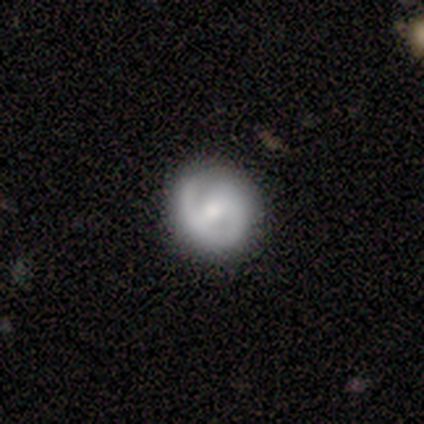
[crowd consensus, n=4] Q: Smooth or featured?
A: featured or disk (75%); runner-up: smooth (25%)
Q: Edge-on disk?
A: no (100%)
Q: Bar?
A: strong (33%); tied with: weak (33%); no (33%)
Q: Spiral arms?
A: yes (100%)
Q: Spiral winding?
A: tight (67%); runner-up: medium (33%)
Q: Spiral arm count?
A: 2 (67%); runner-up: 1 (33%)
Q: Bulge size?
A: moderate (33%); tied with: small (33%); none (33%)
Q: Merging?
A: none (50%); tied with: minor disturbance (50%)